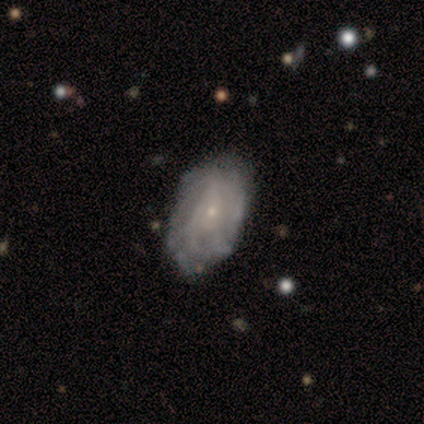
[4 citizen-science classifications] A smooth galaxy with no disk features (75%) that is in between round and cigar-shaped (100%).

Vote fractions:
- Smooth or featured? smooth: 75% / featured or disk: 25% / star or artifact: 0%
- How rounded? in between: 100% / round: 0% / cigar-shaped: 0%
- Merging? none: 75% / major disturbance: 25% / minor disturbance: 0% / merger: 0%